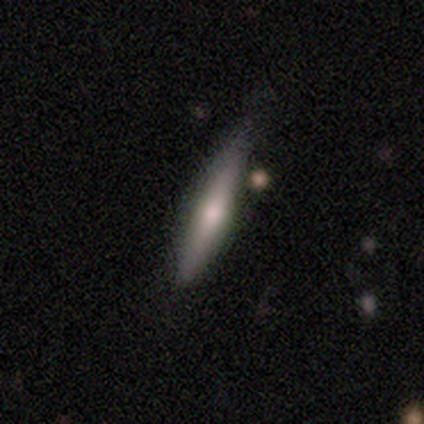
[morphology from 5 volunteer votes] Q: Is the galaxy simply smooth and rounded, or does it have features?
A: featured or disk — 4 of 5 (80%).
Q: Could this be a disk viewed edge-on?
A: yes — 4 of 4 (100%).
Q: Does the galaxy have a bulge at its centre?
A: rounded — 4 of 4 (100%).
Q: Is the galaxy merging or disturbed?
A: none — 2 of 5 (40%, tied with major disturbance).